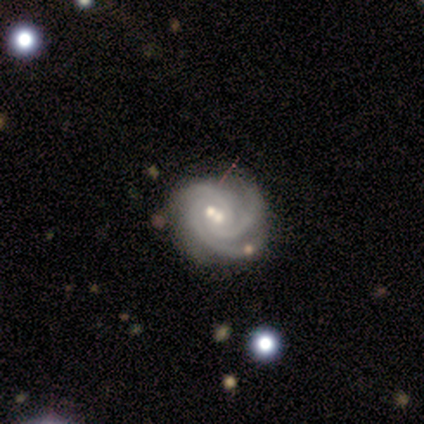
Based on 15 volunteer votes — A featured or disk galaxy (93%) with no bar (57%), 3 (69%) tight (77%) spiral arms (93%) and a moderate central bulge (50%).

Vote fractions:
- Smooth or featured? featured or disk: 93% / smooth: 7% / star or artifact: 0%
- Edge-on disk? no: 100% / yes: 0%
- Bar? no: 57% / strong: 21% / weak: 21%
- Spiral arms? yes: 93% / no: 7%
- Spiral winding? tight: 77% / medium: 15% / loose: 8%
- Spiral arm count? 3: 69% / can't tell: 23% / 2: 8% / 1: 0% / 4: 0% / more than 4: 0%
- Bulge size? moderate: 50% / small: 36% / large: 7% / none: 7% / dominant: 0%
- Merging? none: 53% / merger: 33% / major disturbance: 13% / minor disturbance: 0%